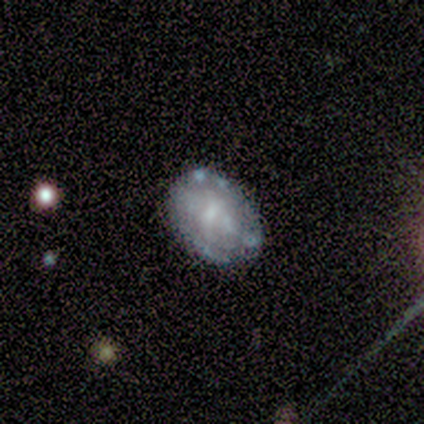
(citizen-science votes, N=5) Smooth or featured: featured or disk — 80% (smooth — 20%)
Edge-on disk: no — 100%
Bar: weak — 50% (tied with no — 50%)
Spiral arms: yes — 50% (tied with no — 50%)
Spiral winding: tight — 50% (tied with medium — 50%)
Spiral arm count: 2 — 50% (tied with can't tell — 50%)
Bulge size: moderate — 50% (tied with none — 50%)
Merging: none — 60% (minor disturbance — 20%)